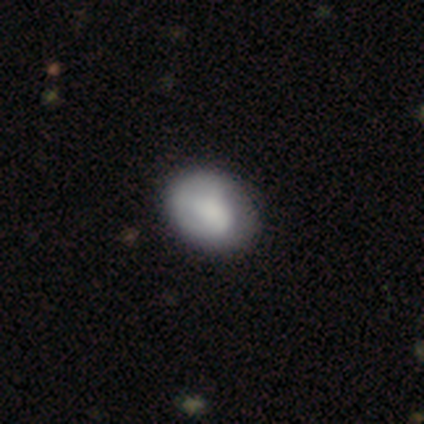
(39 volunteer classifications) smooth 72%, featured or disk 23%, star or artifact 5%. Down the decision tree: how rounded — in between (64%); merging — none (54%).